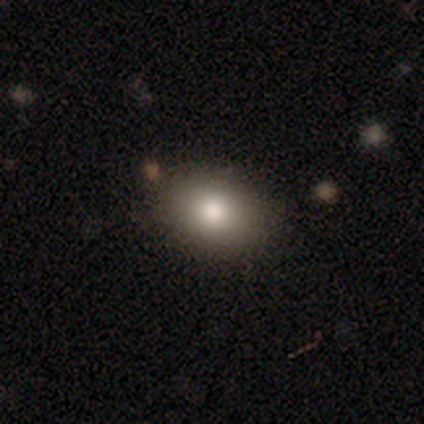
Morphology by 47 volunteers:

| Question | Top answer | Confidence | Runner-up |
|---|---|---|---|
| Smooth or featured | smooth | 79% | featured or disk (13%) |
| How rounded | in between | 59% | round (41%) |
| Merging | none | 86% | minor disturbance (9%) |